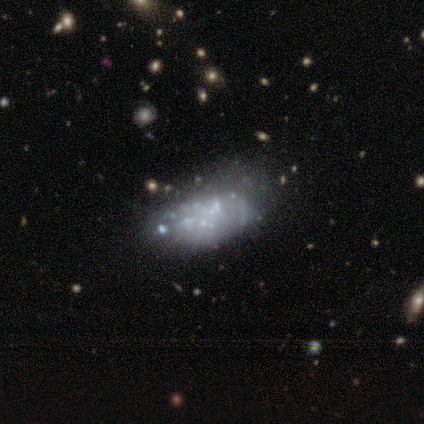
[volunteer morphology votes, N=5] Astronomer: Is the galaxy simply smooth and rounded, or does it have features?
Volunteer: featured or disk — 80%.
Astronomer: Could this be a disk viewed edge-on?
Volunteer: no — 100%.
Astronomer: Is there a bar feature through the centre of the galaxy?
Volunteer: no — 100%.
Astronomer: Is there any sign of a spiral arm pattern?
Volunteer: no — 100%.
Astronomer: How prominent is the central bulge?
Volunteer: none — 100%.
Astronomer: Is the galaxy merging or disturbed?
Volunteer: minor disturbance — 75%.